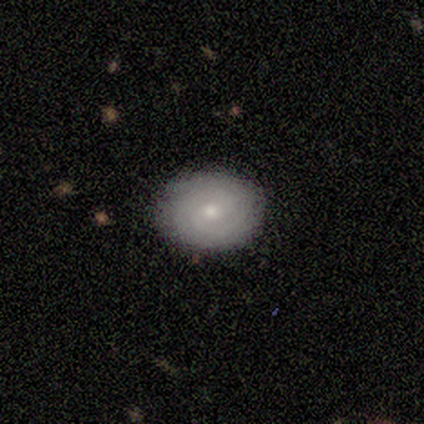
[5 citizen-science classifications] A featured or disk galaxy (80%) with no bar (100%), 2 (50%, tied with can't tell) tight (75%) spiral arms (100%) and a moderate central bulge (50%, tied with small).

Vote fractions:
- Smooth or featured? featured or disk: 80% / smooth: 20% / star or artifact: 0%
- Edge-on disk? no: 100% / yes: 0%
- Bar? no: 100% / strong: 0% / weak: 0%
- Spiral arms? yes: 100% / no: 0%
- Spiral winding? tight: 75% / loose: 25% / medium: 0%
- Spiral arm count? 2: 50% (tied) / can't tell: 50% (tied) / 1: 0% / 3: 0% / 4: 0% / more than 4: 0%
- Bulge size? moderate: 50% (tied) / small: 50% (tied) / dominant: 0% / large: 0% / none: 0%
- Merging? none: 100% / minor disturbance: 0% / major disturbance: 0% / merger: 0%